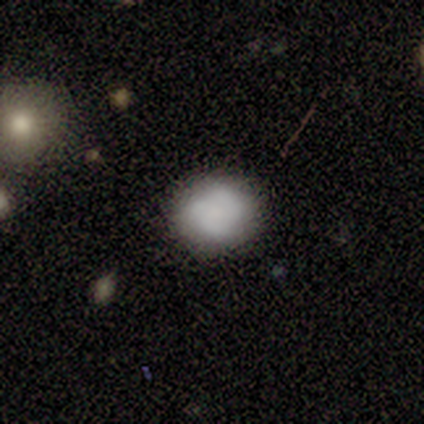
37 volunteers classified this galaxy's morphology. smooth 78%, featured or disk 19%, star or artifact 3%. Down the decision tree: how rounded — round (69%); merging — none (78%).